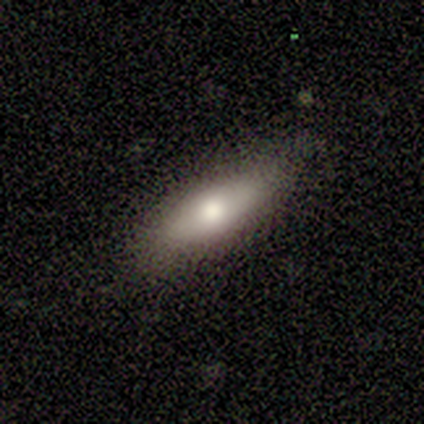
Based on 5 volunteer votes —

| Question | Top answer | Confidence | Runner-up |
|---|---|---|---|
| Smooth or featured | smooth | 80% | featured or disk (20%) |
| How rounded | in between | 50% | tied: cigar-shaped (50%) |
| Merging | none | 80% | minor disturbance (20%) |